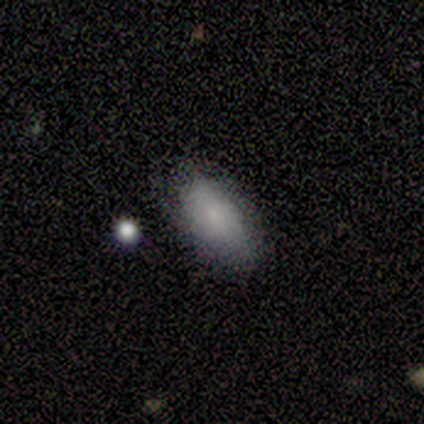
A smooth galaxy with no disk features (80%) that is in between round and cigar-shaped (100%). Merging: none (60%).